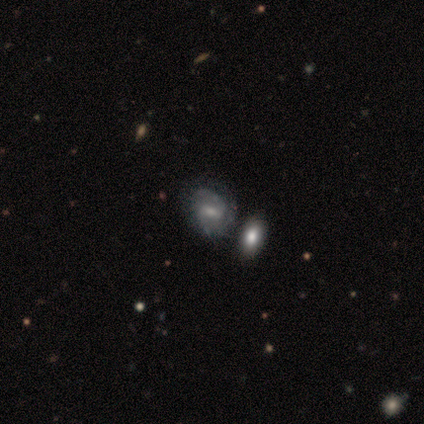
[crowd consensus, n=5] Smooth or featured?
  - featured or disk: 80% *
  - smooth: 20%
  - star or artifact: 0%
Edge-on disk?
  - no: 100% *
  - yes: 0%
Bar?
  - weak: 50% *
  - strong: 25%
  - no: 25%
Spiral arms?
  - yes: 75% *
  - no: 25%
Spiral winding?
  - tight: 67% *
  - medium: 33%
  - loose: 0%
Spiral arm count?
  - 2: 67% *
  - 3: 33%
  - 1: 0%
  - 4: 0%
  - more than 4: 0%
  - can't tell: 0%
Bulge size?
  - small: 50% *
  - moderate: 25%
  - none: 25%
  - dominant: 0%
  - large: 0%
Merging?
  - none: 60% *
  - major disturbance: 20%
  - merger: 20%
  - minor disturbance: 0%